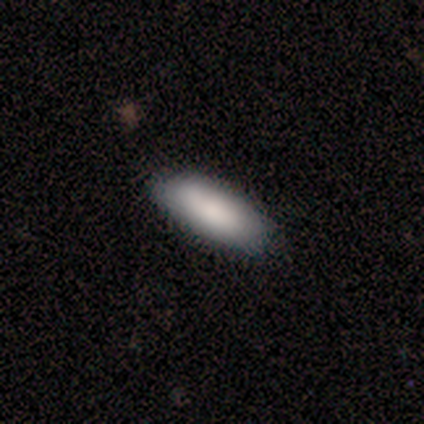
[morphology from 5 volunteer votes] Smooth or featured? smooth (80%)
How rounded? in between (75%)
Merging? none (100%)